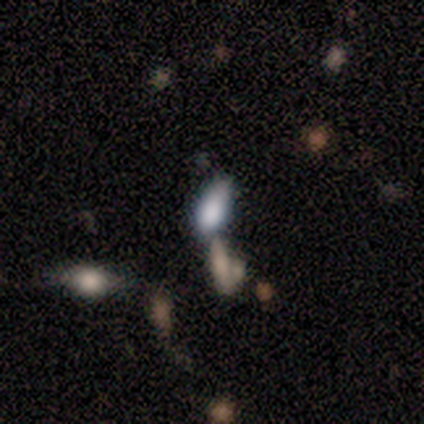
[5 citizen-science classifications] Morphology: type=smooth (100%); roundness=in between (80%); merging=minor disturbance (40%, tied with merger).